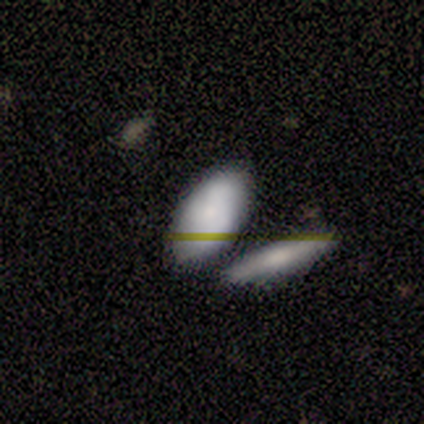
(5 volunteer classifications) Q: Smooth or featured?
A: smooth (100%)
Q: How rounded?
A: in between (100%)
Q: Merging?
A: none (60%); runner-up: merger (40%)